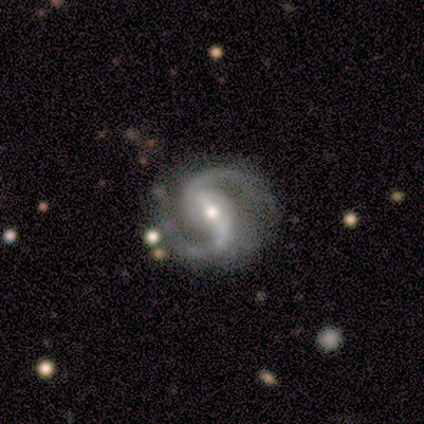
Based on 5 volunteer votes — Smooth or featured? 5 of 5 (100%) said featured or disk. Edge-on disk? 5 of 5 (100%) said no. Bar? 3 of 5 (60%) said strong. Spiral arms? 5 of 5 (100%) said yes. Spiral winding? 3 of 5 (60%) said medium. Spiral arm count? 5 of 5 (100%) said 2. Bulge size? 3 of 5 (60%) said moderate. Merging? 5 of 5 (100%) said none.